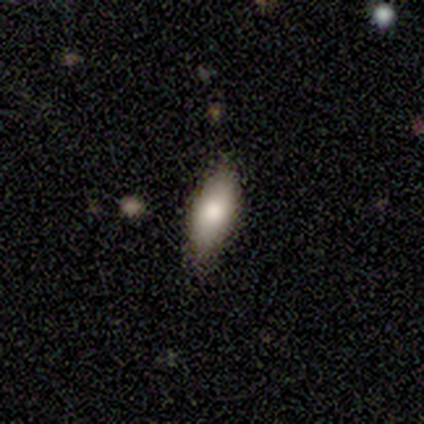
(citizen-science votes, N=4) This appears to be a smooth galaxy with no disk features (75%) that is in between round and cigar-shaped (67%). Merging: none (75%).